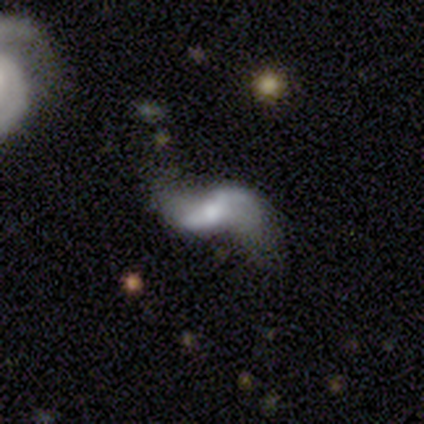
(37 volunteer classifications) This appears to be a featured or disk galaxy (95%) with a weak bar (42%), 2 (90%) loose (87%) spiral arms (91%) and a moderate central bulge (39%). Merging: none (46%).